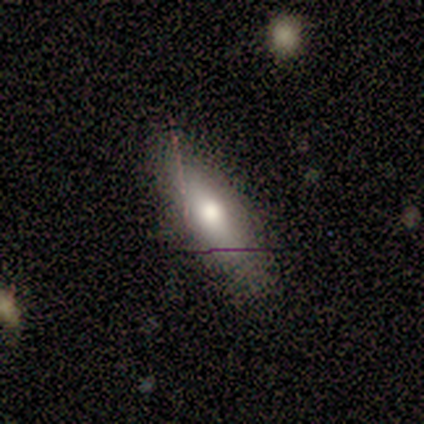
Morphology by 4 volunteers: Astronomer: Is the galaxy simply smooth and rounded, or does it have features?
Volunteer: smooth — 75%.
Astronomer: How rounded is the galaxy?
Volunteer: in between — 67%.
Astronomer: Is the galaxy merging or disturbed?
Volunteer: none — 75%.